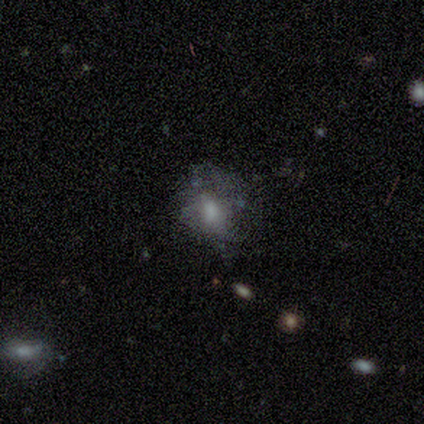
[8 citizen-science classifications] This is marginally a smooth galaxy (38%, tied with featured or disk). How rounded: likely in between (67%). Merging: possibly major disturbance (50%).